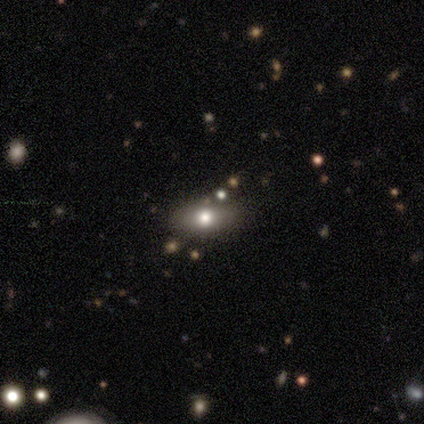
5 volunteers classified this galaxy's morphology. Overall: smooth (80%). How rounded: in between (75%). Merging: none (75%).